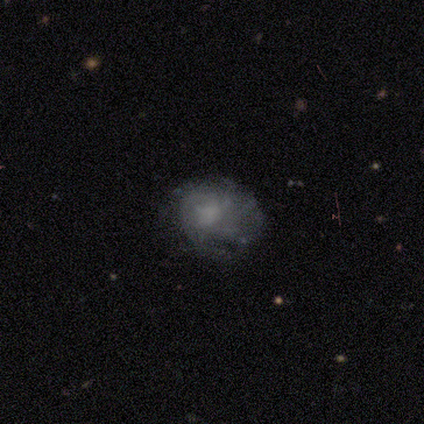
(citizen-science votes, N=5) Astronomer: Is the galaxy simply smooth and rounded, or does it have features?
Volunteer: featured or disk — 60%.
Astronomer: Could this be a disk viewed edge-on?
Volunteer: no — 100%.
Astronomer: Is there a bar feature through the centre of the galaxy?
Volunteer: no — 100%.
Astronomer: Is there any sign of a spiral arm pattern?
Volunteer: no — 100%.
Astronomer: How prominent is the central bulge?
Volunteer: moderate — 67%.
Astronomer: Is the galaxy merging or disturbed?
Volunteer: none — 50%.